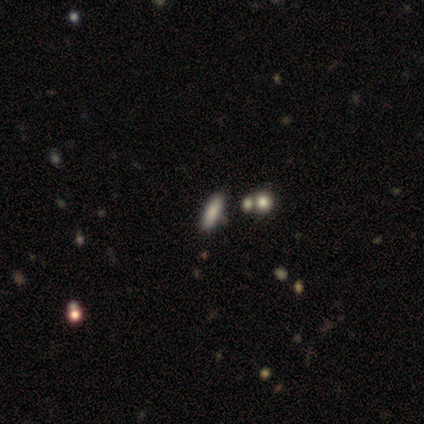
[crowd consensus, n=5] Smooth or featured?
  - smooth: 60% *
  - featured or disk: 20%
  - star or artifact: 20%
How rounded?
  - cigar-shaped: 67% *
  - in between: 33%
  - round: 0%
Merging?
  - none: 75% *
  - minor disturbance: 25%
  - major disturbance: 0%
  - merger: 0%